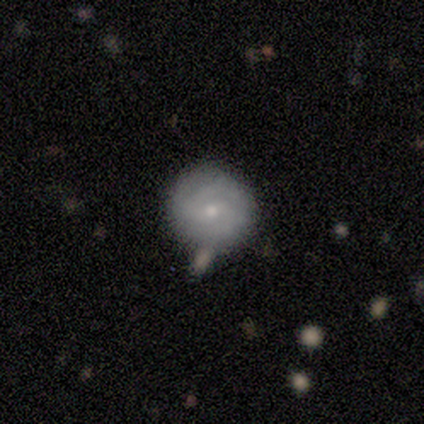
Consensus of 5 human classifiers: Overall: featured or disk (80%). Edge-on disk: no (100%). Bar: no (75%). Spiral arms: yes (100%). Spiral arm count: 2 (75%). Spiral winding: medium (75%). Bulge size: small (75%). Merging: none (75%).